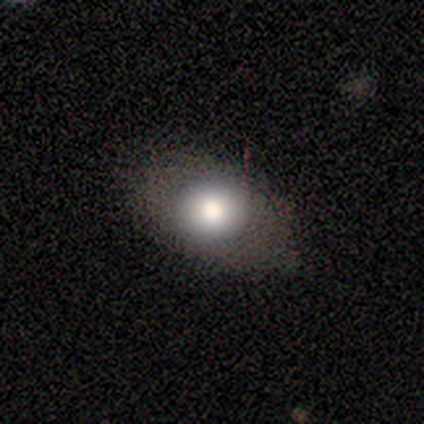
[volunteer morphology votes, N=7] Overall: smooth (86%). How rounded: in between (83%). Merging: none (71%).